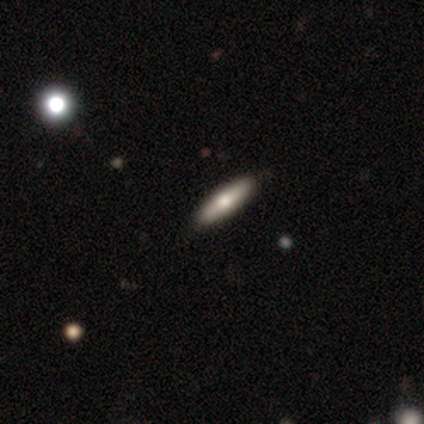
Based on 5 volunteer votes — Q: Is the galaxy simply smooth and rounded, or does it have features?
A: smooth — 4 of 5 (80%).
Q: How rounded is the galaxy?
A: cigar-shaped — 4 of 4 (100%).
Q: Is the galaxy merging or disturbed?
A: none — 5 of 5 (100%).